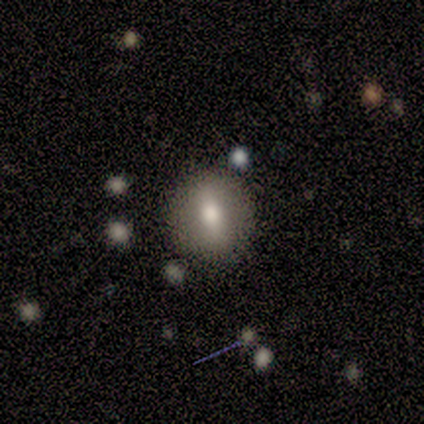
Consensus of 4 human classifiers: A smooth galaxy with no disk features (75%) that is round (100%). Merging: none (100%).